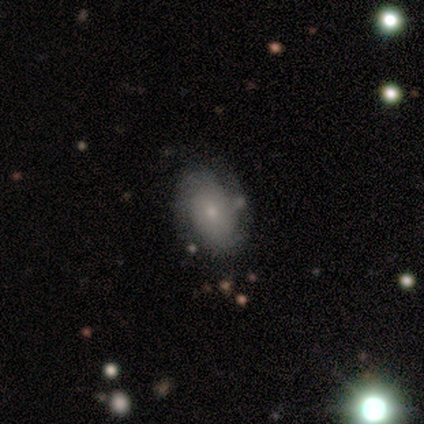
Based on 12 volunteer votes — featured or disk 58%, smooth 33%, star or artifact 8%. Down the decision tree: edge-on disk — no (100%); bar — no (57%); spiral arms — yes (71%); spiral arm count — 2 (60%); spiral winding — tight (60%); bulge size — small (71%); merging — none (73%).